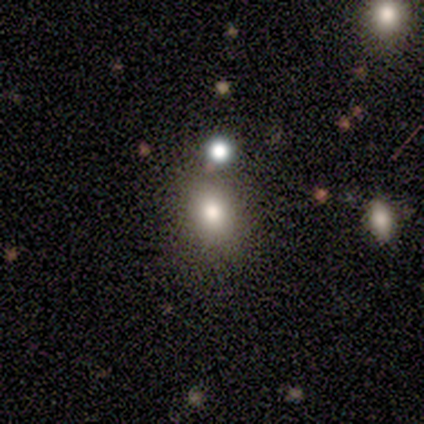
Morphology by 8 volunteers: Smooth or featured?
  - smooth: 50% *
  - star or artifact: 38%
  - featured or disk: 12%
How rounded?
  - in between: 50% *
  - round: 25%
  - cigar-shaped: 25%
Merging?
  - none: 80% *
  - minor disturbance: 20%
  - major disturbance: 0%
  - merger: 0%